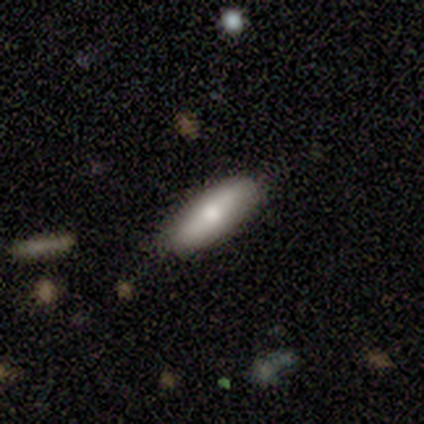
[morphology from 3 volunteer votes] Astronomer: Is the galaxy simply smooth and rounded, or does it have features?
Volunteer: featured or disk — 67%.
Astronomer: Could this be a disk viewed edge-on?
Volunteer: yes — 50%, tied with no at 50%.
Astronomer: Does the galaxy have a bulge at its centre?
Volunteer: boxy — 100%.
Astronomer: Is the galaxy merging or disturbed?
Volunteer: none — 67%.